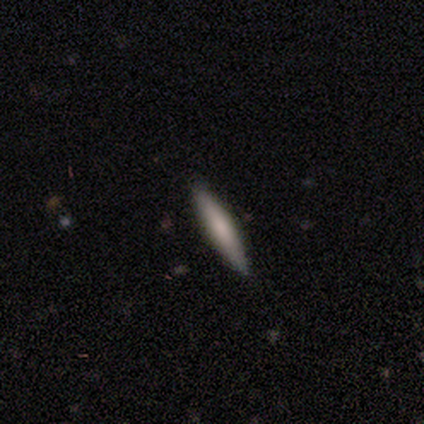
Smooth or featured?
  - smooth: 80% *
  - featured or disk: 20%
  - star or artifact: 0%
How rounded?
  - cigar-shaped: 100% *
  - round: 0%
  - in between: 0%
Merging?
  - none: 100% *
  - minor disturbance: 0%
  - major disturbance: 0%
  - merger: 0%